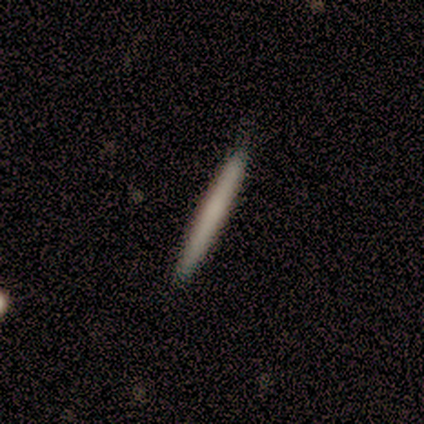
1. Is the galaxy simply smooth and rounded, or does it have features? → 75% smooth, 25% featured or disk, 0% star or artifact.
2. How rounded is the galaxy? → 100% cigar-shaped, 0% round, 0% in between.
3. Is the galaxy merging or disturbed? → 57% none, 2% minor disturbance, 2% merger, 0% major disturbance.